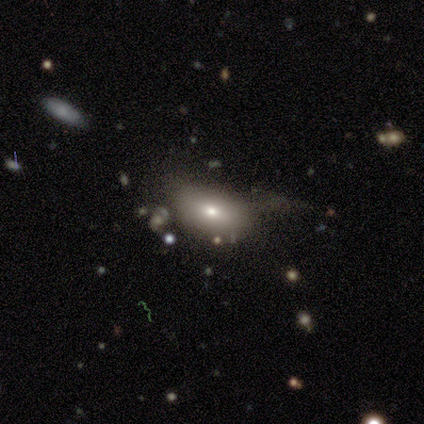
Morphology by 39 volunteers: Smooth or featured?
  - smooth: 69% *
  - featured or disk: 21%
  - star or artifact: 10%
How rounded?
  - in between: 93% *
  - round: 4%
  - cigar-shaped: 4%
Merging?
  - none: 37% *
  - minor disturbance: 29%
  - major disturbance: 29%
  - merger: 6%